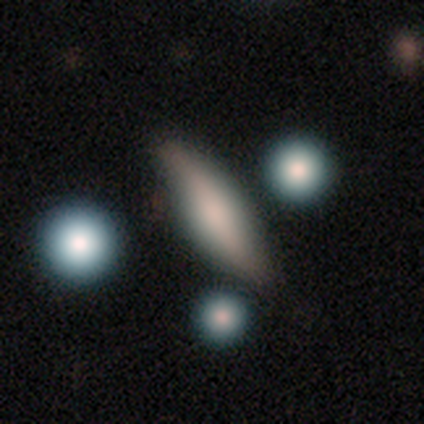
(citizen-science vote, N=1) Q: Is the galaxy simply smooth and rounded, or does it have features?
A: smooth — 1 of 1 (100%).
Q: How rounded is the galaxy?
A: in between — 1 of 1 (100%).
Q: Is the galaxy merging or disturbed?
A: none — 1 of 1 (100%).